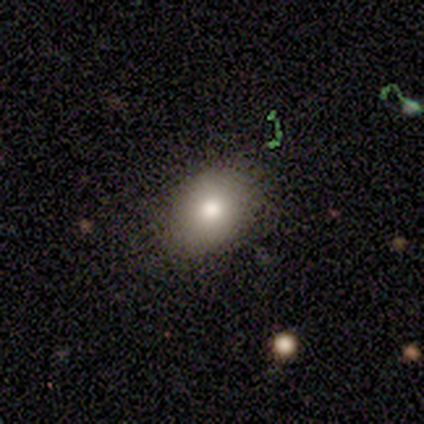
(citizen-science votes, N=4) smooth 75%, featured or disk 25%, star or artifact 0%. Down the decision tree: how rounded — in between (67%); merging — none (100%).